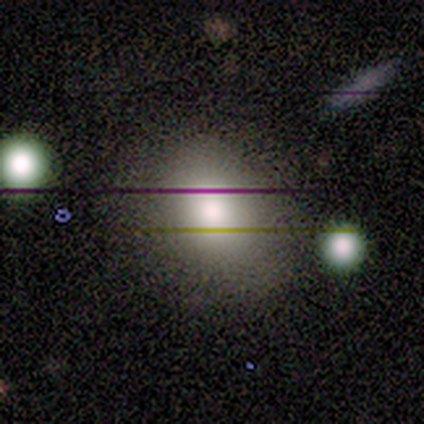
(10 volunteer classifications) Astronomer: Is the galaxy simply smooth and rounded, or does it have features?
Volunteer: smooth — 70%.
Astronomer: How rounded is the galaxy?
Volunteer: in between — 71%.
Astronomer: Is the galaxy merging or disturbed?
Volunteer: none — 62%.